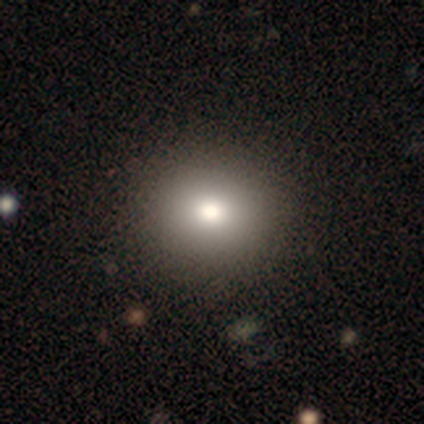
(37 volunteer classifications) Morphology: type=smooth (70%); roundness=round (69%); merging=none (71%).